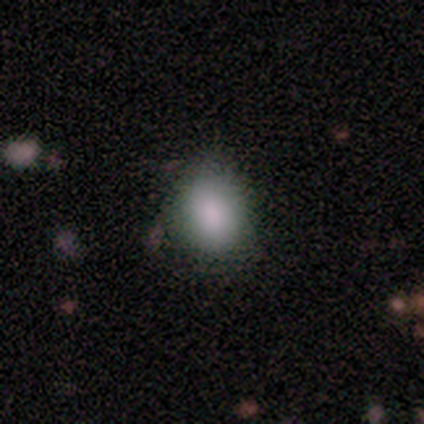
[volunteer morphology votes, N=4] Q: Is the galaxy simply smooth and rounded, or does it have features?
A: smooth — 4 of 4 (100%).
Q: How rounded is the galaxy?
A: in between — 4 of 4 (100%).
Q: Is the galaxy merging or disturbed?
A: none — 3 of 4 (75%).